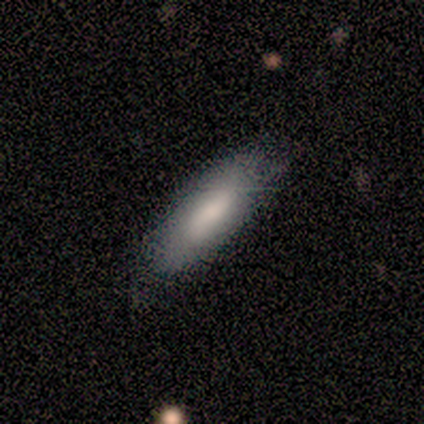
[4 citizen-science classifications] This is likely a smooth galaxy (75%). How rounded: likely in between (67%). Merging: likely none (75%).